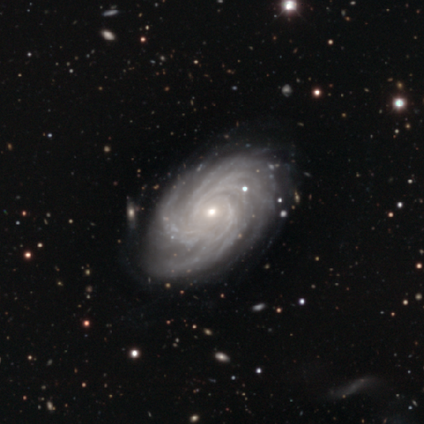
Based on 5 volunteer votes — Smooth or featured? 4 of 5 (80%) said featured or disk. Edge-on disk? 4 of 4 (100%) said no. Bar? 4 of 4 (100%) said no. Spiral arms? 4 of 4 (100%) said yes. Spiral winding? 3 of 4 (75%) said tight. Spiral arm count? 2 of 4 (50%, tied with more than 4) said 3. Bulge size? 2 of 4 (50%, tied with small) said moderate. Merging? 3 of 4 (75%) said none.